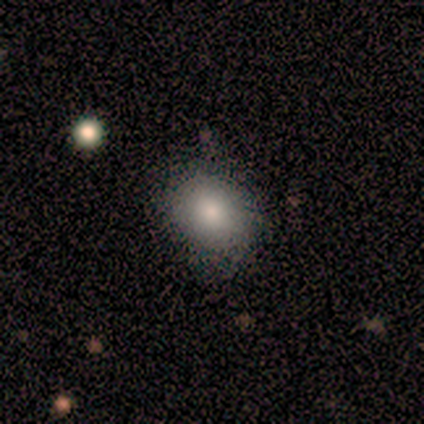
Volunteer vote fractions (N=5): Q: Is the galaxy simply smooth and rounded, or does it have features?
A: smooth — 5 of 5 (100%).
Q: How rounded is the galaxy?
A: in between — 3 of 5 (60%).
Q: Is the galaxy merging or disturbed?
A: minor disturbance — 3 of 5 (60%).